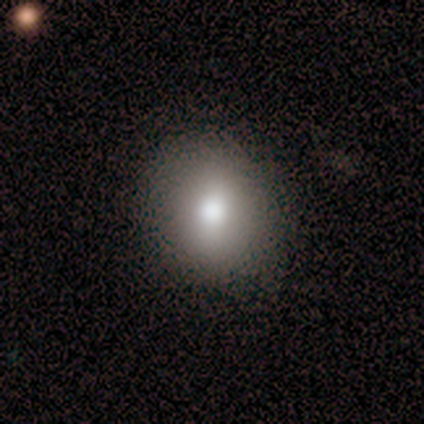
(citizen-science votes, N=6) Volunteers were most divided on "how rounded": round: 83%, in between: 17%, cigar-shaped: 0%. More confident: smooth or featured — smooth (100%); merging — none (83%).